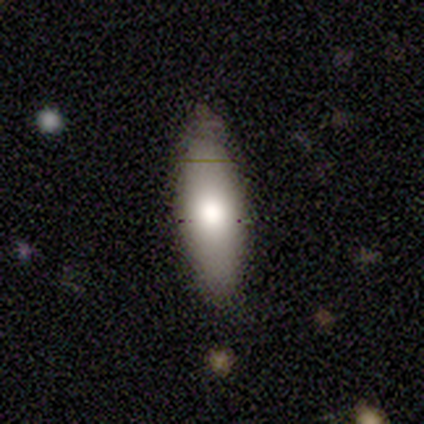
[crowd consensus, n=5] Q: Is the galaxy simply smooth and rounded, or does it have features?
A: smooth — 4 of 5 (80%).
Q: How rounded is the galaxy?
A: cigar-shaped — 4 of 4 (100%).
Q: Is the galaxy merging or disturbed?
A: none — 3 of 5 (60%).